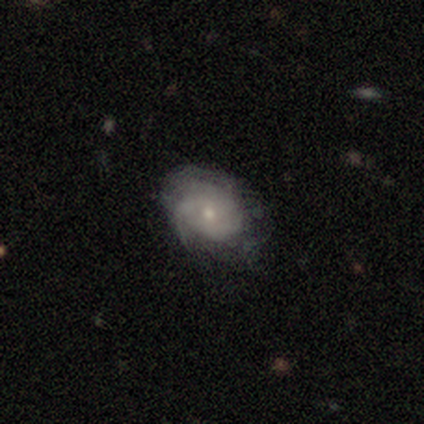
Smooth or featured?
  - smooth: 67% *
  - featured or disk: 33%
  - star or artifact: 0%
How rounded?
  - in between: 100% *
  - round: 0%
  - cigar-shaped: 0%
Merging?
  - none: 50% *
  - minor disturbance: 33%
  - major disturbance: 17%
  - merger: 0%